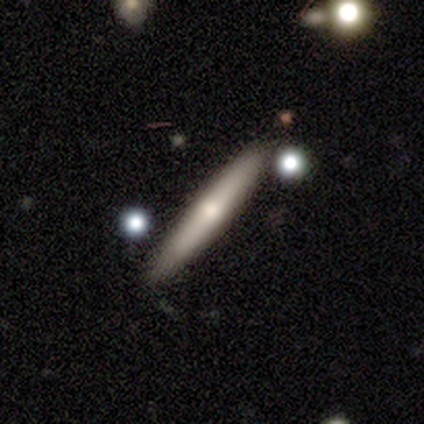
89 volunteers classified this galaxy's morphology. A smooth galaxy with no disk features (63%) that is cigar-shaped (95%). Merging: none (85%).